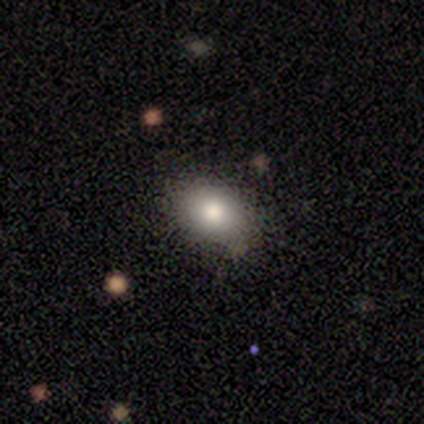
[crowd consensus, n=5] smooth_or_featured: smooth (p=0.40) [tied with: featured or disk p=0.40]
how_rounded: in between (p=1.00)
merging: none (p=1.00)